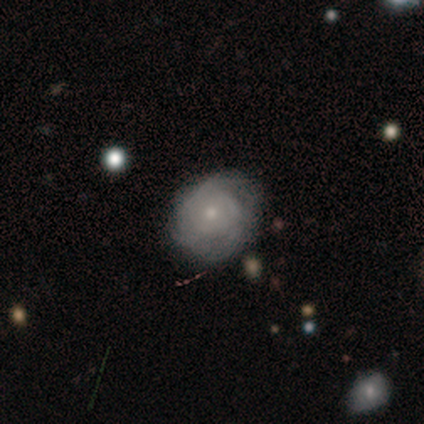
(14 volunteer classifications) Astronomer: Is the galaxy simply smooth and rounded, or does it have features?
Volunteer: featured or disk — 64%.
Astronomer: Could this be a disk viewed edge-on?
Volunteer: no — 100%.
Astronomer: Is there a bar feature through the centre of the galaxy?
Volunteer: no — 100%.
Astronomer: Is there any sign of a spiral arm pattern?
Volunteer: yes — 100%.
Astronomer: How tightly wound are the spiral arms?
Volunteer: tight — 67%.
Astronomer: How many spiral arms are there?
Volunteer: can't tell — 56% (runner-up: 3, 33%).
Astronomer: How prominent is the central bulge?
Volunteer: small — 56% (runner-up: moderate, 33%).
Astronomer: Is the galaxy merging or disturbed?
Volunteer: none — 69%.